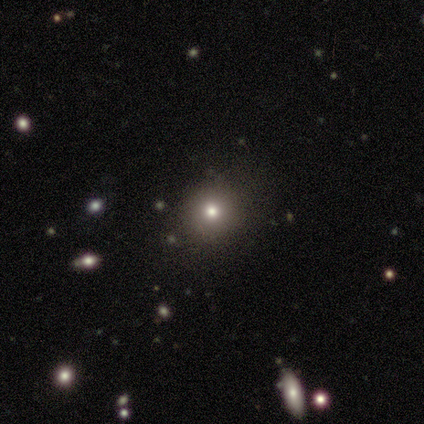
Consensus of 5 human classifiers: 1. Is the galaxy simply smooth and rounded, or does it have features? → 80% smooth, 20% star or artifact, 0% featured or disk.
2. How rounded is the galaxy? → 100% round, 0% in between, 0% cigar-shaped.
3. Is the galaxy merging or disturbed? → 75% none, 25% minor disturbance, 0% major disturbance, 0% merger.